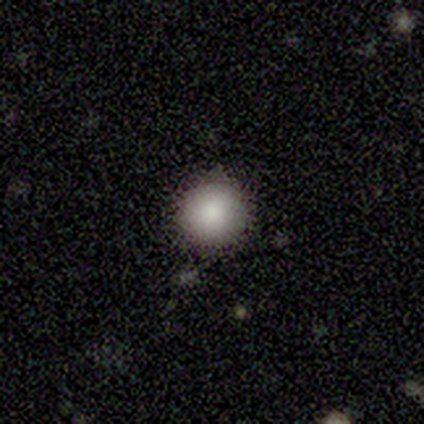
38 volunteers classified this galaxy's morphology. Overall: smooth (82%). How rounded: round (100%). Merging: none (94%).